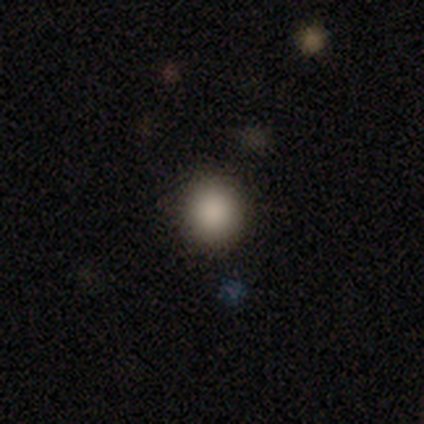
Volunteers were most divided on "how rounded" (2-way tie): round: 50%, in between: 50%, cigar-shaped: 0%. More confident: smooth or featured — smooth (100%); merging — none (100%).